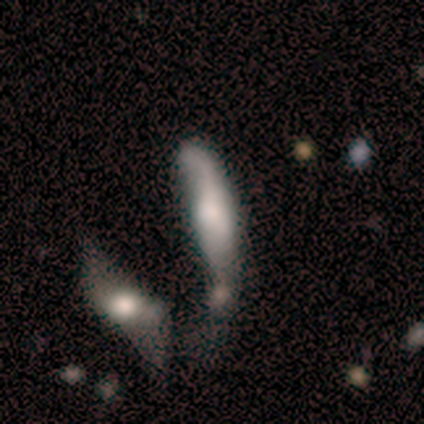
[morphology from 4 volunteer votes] smooth_or_featured: smooth (p=0.75) [alt: star or artifact p=0.25]
how_rounded: in between (p=0.67) [alt: cigar-shaped p=0.33]
merging: major disturbance (p=0.67) [alt: minor disturbance p=0.33]